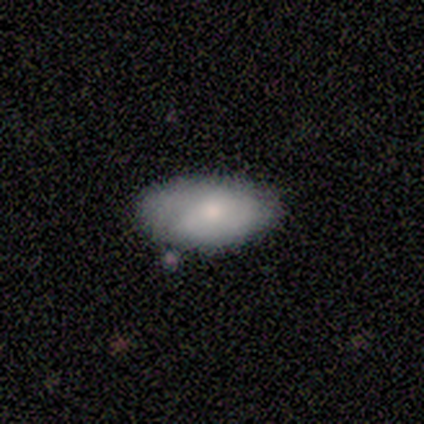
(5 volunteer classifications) Smooth or featured: smooth — 40% (tied with featured or disk — 40%)
How rounded: in between — 100%
Merging: none — 75% (minor disturbance — 25%)